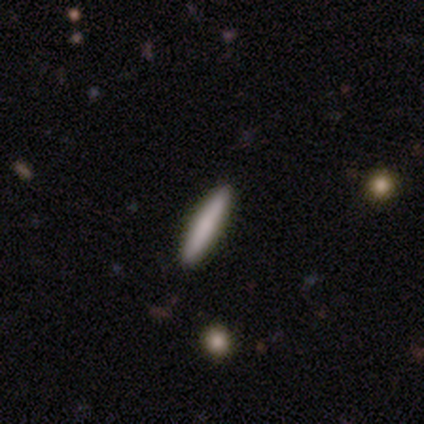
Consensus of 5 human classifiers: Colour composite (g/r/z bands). It shows a smooth galaxy with no disk features (80%) that is cigar-shaped (100%). Merging: none (100%).